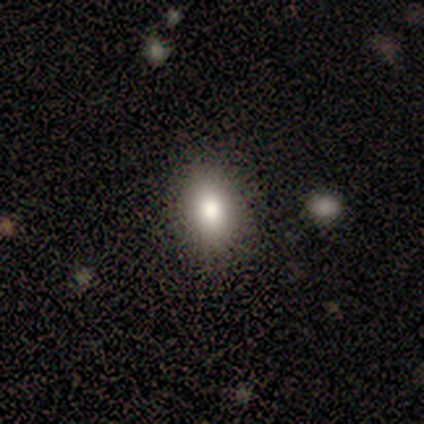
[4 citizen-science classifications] Smooth or featured? smooth (50%, tied with featured or disk)
How rounded? round (50%, tied with in between)
Merging? none (100%)